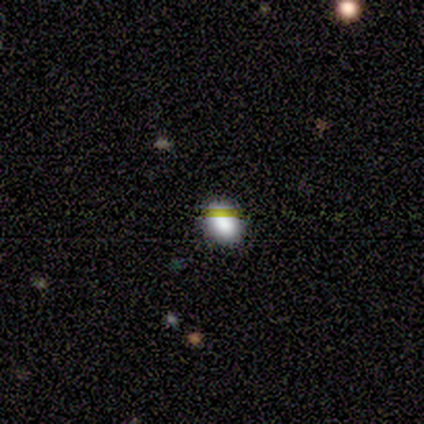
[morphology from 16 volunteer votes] Smooth or featured: smooth — 94% (star or artifact — 6%)
How rounded: in between — 73% (round — 27%)
Merging: none — 87% (minor disturbance — 7%)